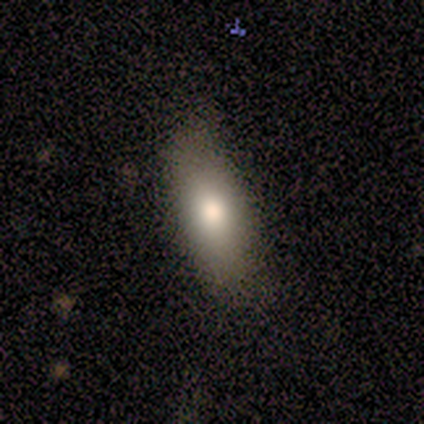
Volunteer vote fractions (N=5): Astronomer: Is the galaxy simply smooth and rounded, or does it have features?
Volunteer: smooth — 80%.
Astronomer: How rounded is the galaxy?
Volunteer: in between — 50%, tied with cigar-shaped at 50%.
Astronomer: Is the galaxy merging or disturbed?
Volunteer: none — 100%.